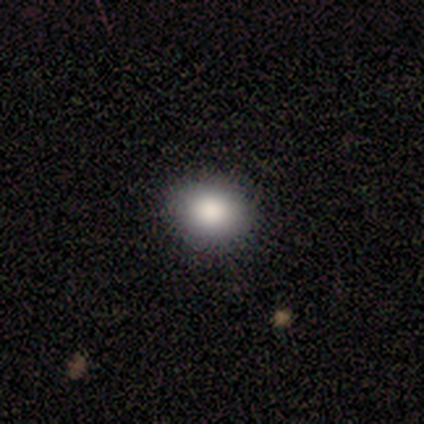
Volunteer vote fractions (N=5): Smooth or featured?
  - smooth: 100% *
  - featured or disk: 0%
  - star or artifact: 0%
How rounded?
  - round: 100% *
  - in between: 0%
  - cigar-shaped: 0%
Merging?
  - none: 100% *
  - minor disturbance: 0%
  - major disturbance: 0%
  - merger: 0%